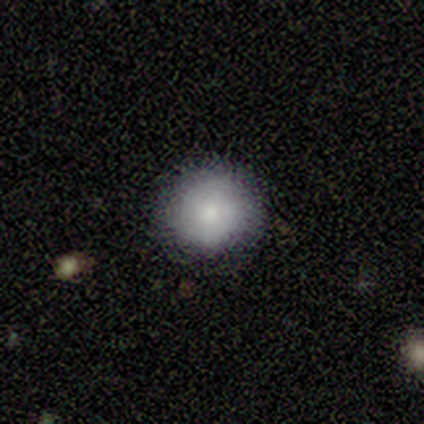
This appears to be a smooth galaxy with no disk features (79%) that is round (97%). Merging: none (46%).